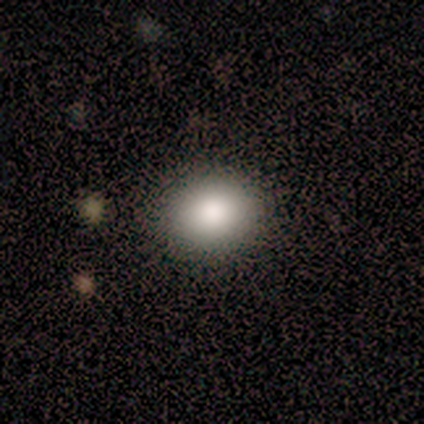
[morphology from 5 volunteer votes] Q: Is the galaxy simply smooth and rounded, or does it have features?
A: smooth — 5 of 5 (100%).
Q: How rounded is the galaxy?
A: round — 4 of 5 (80%).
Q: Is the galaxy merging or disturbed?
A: none — 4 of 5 (80%).